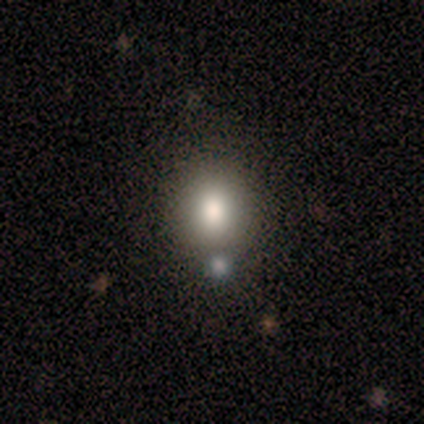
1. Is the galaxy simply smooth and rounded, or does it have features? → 100% smooth, 0% featured or disk, 0% star or artifact.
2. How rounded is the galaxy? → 60% round, 40% in between, 0% cigar-shaped.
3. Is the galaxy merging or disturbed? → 60% none, 20% minor disturbance, 20% major disturbance, 0% merger.